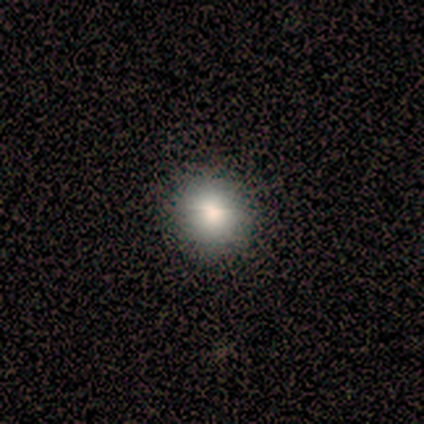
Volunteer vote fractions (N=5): Smooth or featured: smooth — 100%
How rounded: round — 80% (in between — 20%)
Merging: none — 60% (minor disturbance — 40%)